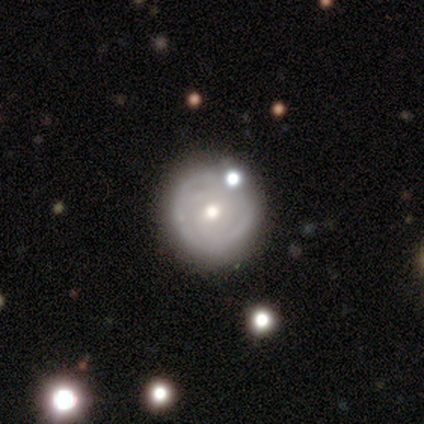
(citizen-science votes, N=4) Volunteers were most divided on "merging": none: 75%, major disturbance: 25%, minor disturbance: 0%, merger: 0%. More confident: smooth or featured — smooth (100%); how rounded — round (100%).